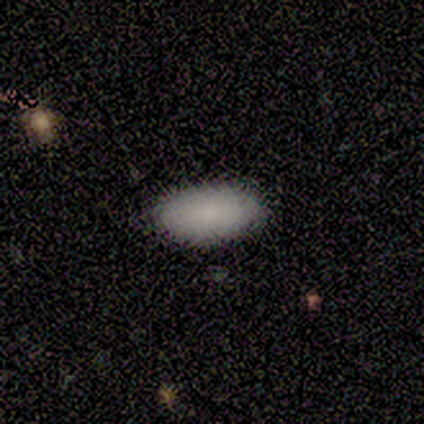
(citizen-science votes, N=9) smooth_or_featured: smooth (p=0.67) [alt: star or artifact p=0.33]
how_rounded: in between (p=1.00)
merging: none (p=0.83) [alt: minor disturbance p=0.17]